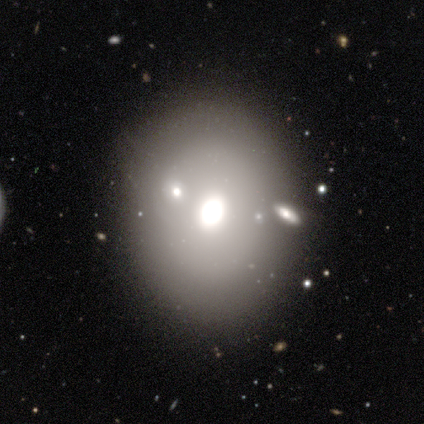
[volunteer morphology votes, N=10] smooth 80%, featured or disk 20%, star or artifact 0%. Down the decision tree: how rounded — round (62%); merging — none (70%).